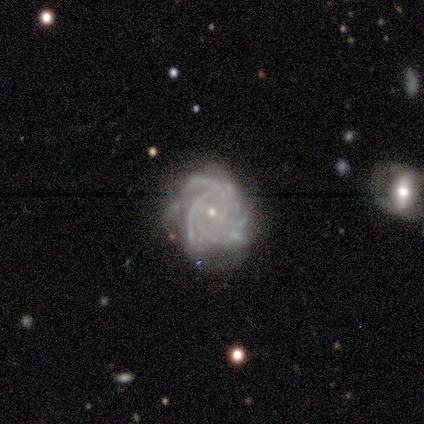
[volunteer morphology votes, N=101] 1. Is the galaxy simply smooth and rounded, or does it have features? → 94% featured or disk, 4% star or artifact, 2% smooth.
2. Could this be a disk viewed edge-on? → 97% no, 3% yes.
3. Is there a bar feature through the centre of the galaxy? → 62% no, 37% weak, 1% strong.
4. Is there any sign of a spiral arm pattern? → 99% yes, 1% no.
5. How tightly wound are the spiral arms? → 71% tight, 29% medium, 0% loose.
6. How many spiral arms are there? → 54% more than 4, 21% can't tell, 11% 3, 11% 4, 2% 2, 1% 1.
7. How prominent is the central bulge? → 92% small, 8% moderate, 0% dominant, 0% large, 0% none.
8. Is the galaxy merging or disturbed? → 68% none, 22% minor disturbance, 6% major disturbance, 4% merger.